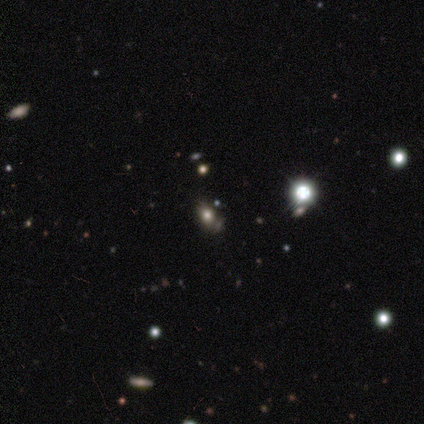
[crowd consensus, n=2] smooth-or-featured: smooth: 50% (tied) | star or artifact: 50% (tied) | featured or disk: 0%
  how-rounded: in between: 100% | round: 0% | cigar-shaped: 0%
  merging: none: 100% | minor disturbance: 0% | major disturbance: 0% | merger: 0%